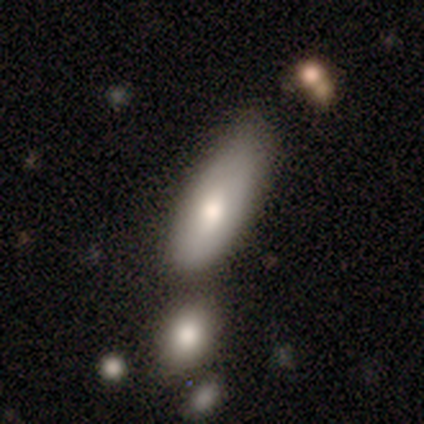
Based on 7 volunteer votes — Volunteers were most divided on "how rounded" (2-way tie): in between: 50%, cigar-shaped: 50%, round: 0%. More confident: smooth or featured — smooth (86%); merging — none (67%).